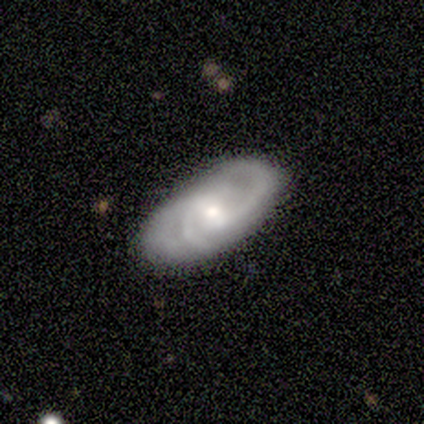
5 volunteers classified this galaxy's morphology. Smooth or featured: smooth — 40% (tied with featured or disk — 40%)
How rounded: in between — 50% (tied with cigar-shaped — 50%)
Merging: none — 75% (minor disturbance — 25%)